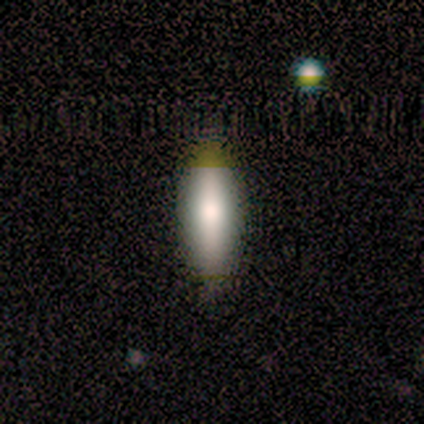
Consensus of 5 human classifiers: A smooth galaxy with no disk features (80%) that is in between round and cigar-shaped (75%). Merging: none (60%).